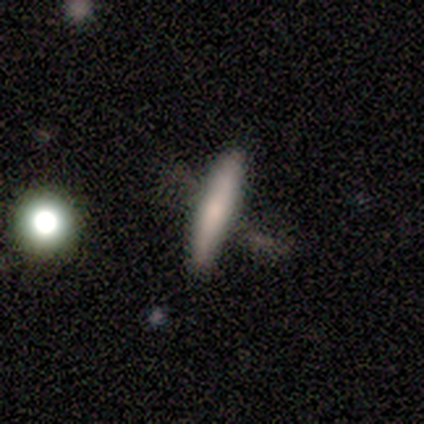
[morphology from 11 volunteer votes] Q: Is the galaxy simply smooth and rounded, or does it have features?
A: smooth — 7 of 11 (64%).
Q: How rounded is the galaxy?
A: cigar-shaped — 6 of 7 (86%).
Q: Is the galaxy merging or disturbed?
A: none — 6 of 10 (60%).